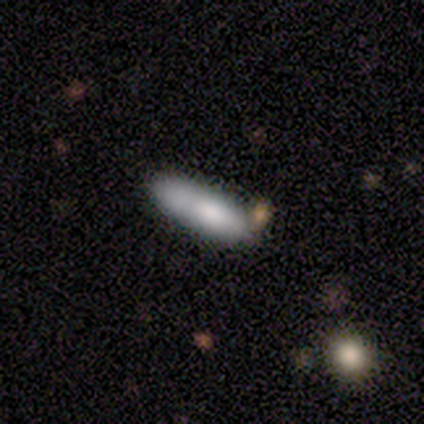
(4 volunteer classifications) Q: Smooth or featured?
A: smooth (75%); runner-up: featured or disk (25%)
Q: How rounded?
A: cigar-shaped (67%); runner-up: in between (33%)
Q: Merging?
A: merger (50%); runner-up: none (25%)